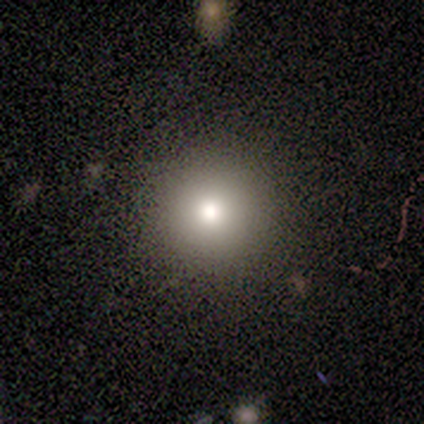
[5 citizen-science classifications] This appears to be a smooth galaxy with no disk features (60%) that is round (100%). Merging: none (100%).